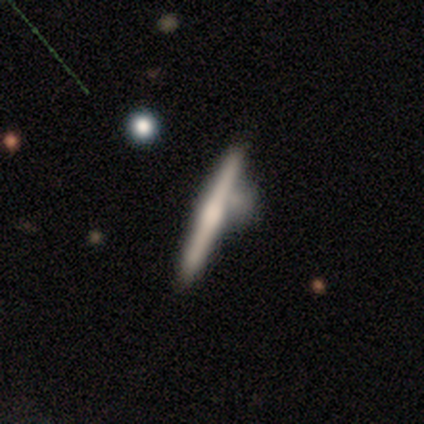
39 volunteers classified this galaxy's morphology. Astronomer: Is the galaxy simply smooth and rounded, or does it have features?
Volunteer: featured or disk — 64%.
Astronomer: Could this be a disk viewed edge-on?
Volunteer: yes — 100%.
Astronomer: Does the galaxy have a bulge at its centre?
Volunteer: rounded — 56%.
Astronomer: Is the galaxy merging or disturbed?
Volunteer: none — 41% (runner-up: minor disturbance, 32%).